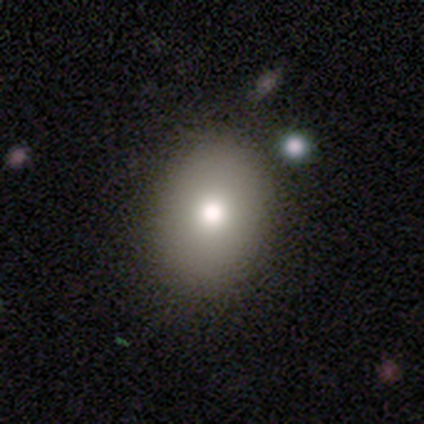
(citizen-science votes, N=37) A smooth galaxy with no disk features (76%) that is in between round and cigar-shaped (61%).

Vote fractions:
- Smooth or featured? smooth: 76% / featured or disk: 14% / star or artifact: 11%
- How rounded? in between: 61% / round: 39% / cigar-shaped: 0%
- Merging? none: 88% / minor disturbance: 9% / major disturbance: 3% / merger: 0%